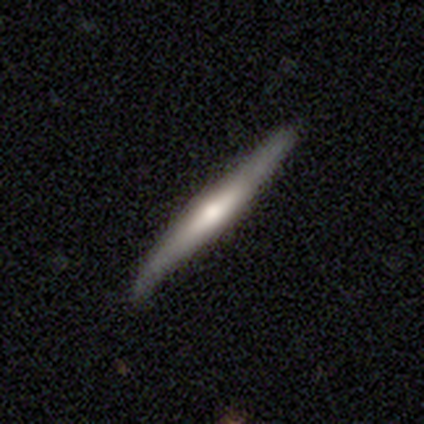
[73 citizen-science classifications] Volunteers were most divided on "smooth or featured": featured or disk: 62%, smooth: 27%, star or artifact: 11%. More confident: edge-on disk — yes (96%); edge-on bulge — rounded (74%); merging — none (68%).